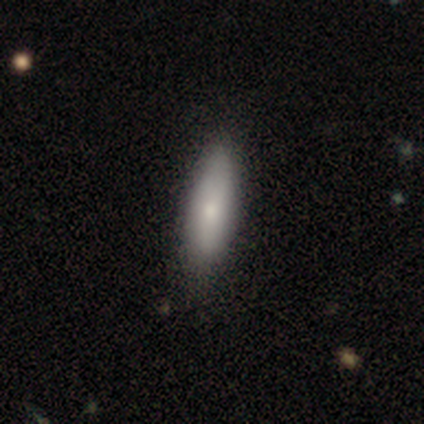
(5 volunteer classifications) Smooth or featured?
  - smooth: 100% *
  - featured or disk: 0%
  - star or artifact: 0%
How rounded?
  - cigar-shaped: 60% *
  - in between: 40%
  - round: 0%
Merging?
  - none: 60% *
  - minor disturbance: 40%
  - major disturbance: 0%
  - merger: 0%